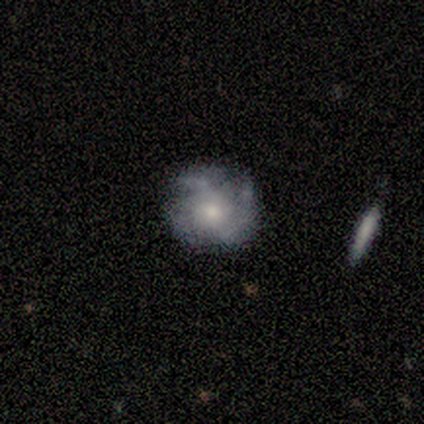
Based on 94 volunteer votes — Smooth or featured?
  - featured or disk: 76% *
  - smooth: 18%
  - star or artifact: 6%
Edge-on disk?
  - no: 100% *
  - yes: 0%
Bar?
  - no: 86% *
  - weak: 11%
  - strong: 3%
Spiral arms?
  - yes: 83% *
  - no: 17%
Spiral winding?
  - tight: 44% *
  - medium: 41%
  - loose: 15%
Spiral arm count?
  - 3: 53% *
  - 2: 22%
  - can't tell: 17%
  - 4: 7%
  - 1: 2%
  - more than 4: 0%
Bulge size?
  - moderate: 65% *
  - small: 20%
  - large: 13%
  - dominant: 3%
  - none: 0%
Merging?
  - none: 58% *
  - minor disturbance: 20%
  - major disturbance: 19%
  - merger: 2%